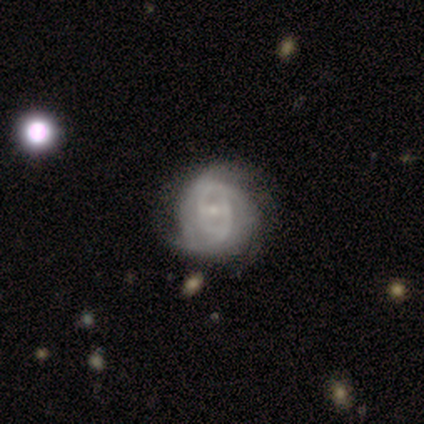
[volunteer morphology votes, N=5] Volunteers were most divided on "spiral arm count" (3-way tie): 2: 33%, 3: 33%, 4: 33%, 1: 0%, more than 4: 0%, can't tell: 0%; "merging" (2-way tie): minor disturbance: 40%, major disturbance: 40%, none: 20%, merger: 0%. More confident: edge-on disk — no (100%); spiral arms — yes (100%); bulge size — small (100%); bar — weak (67%); spiral winding — medium (67%); smooth or featured — featured or disk (60%).